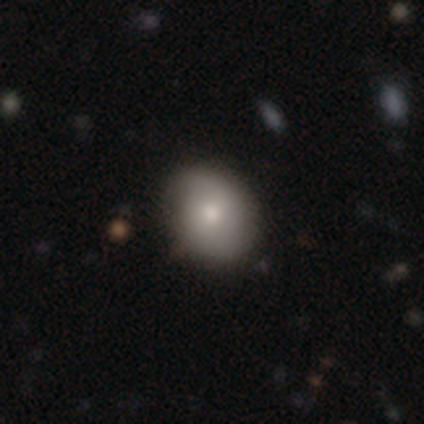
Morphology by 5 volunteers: Smooth or featured: smooth — 80% (featured or disk — 20%)
How rounded: round — 75% (in between — 25%)
Merging: none — 100%